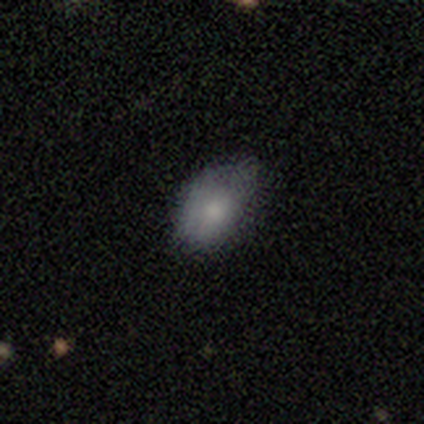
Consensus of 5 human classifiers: Smooth or featured: smooth — 100%
How rounded: in between — 100%
Merging: none — 80% (minor disturbance — 20%)